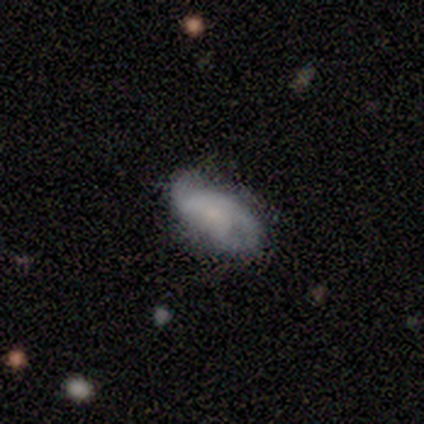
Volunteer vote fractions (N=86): Smooth or featured? featured or disk (55%)
Edge-on disk? no (91%)
Bar? no (81%)
Spiral arms? yes (74%)
Spiral winding? medium (44%)
Spiral arm count? 2 (69%)
Bulge size? small (44%)
Merging? none (54%)